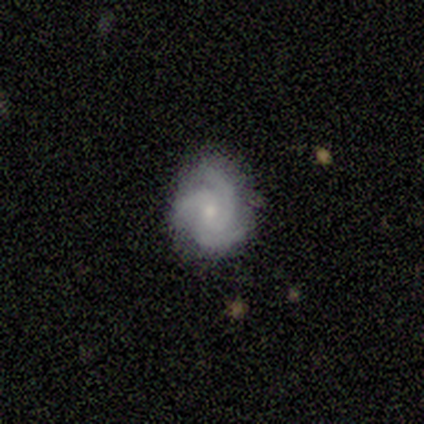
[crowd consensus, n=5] smooth_or_featured: featured or disk (p=0.60) [alt: smooth p=0.40]
disk_edge_on: no (p=1.00)
bar: weak (p=0.67) [alt: no p=0.33]
has_spiral_arms: yes (p=1.00)
spiral_winding: medium (p=1.00)
spiral_arm_count: 3 (p=1.00)
bulge_size: small (p=0.67) [alt: moderate p=0.33]
merging: none (p=0.80) [alt: major disturbance p=0.20]